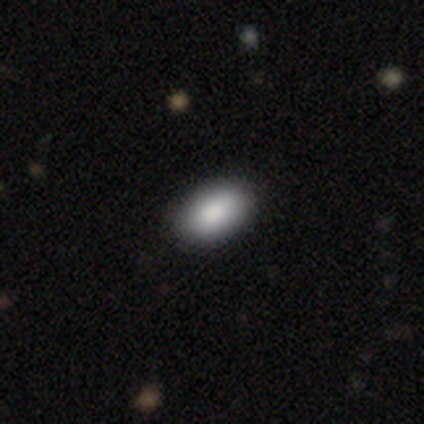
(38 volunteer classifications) Smooth or featured? 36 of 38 (95%) said smooth. How rounded? 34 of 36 (94%) said in between. Merging? 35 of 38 (92%) said none.